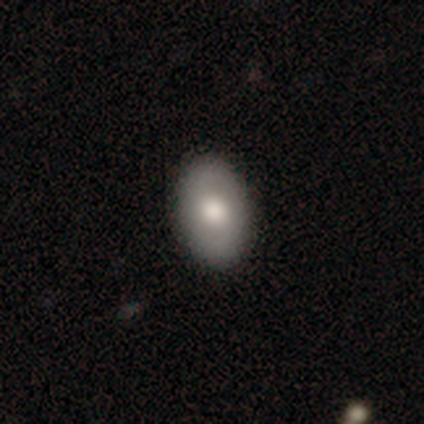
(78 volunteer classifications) Smooth or featured? smooth (77%)
How rounded? in between (90%)
Merging? none (60%)